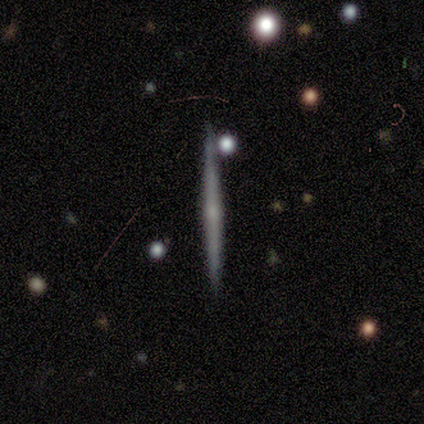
featured or disk 79%, smooth 21%, star or artifact 0%. Down the decision tree: edge-on disk — yes (100%); edge-on bulge — rounded (55%); merging — none (93%).